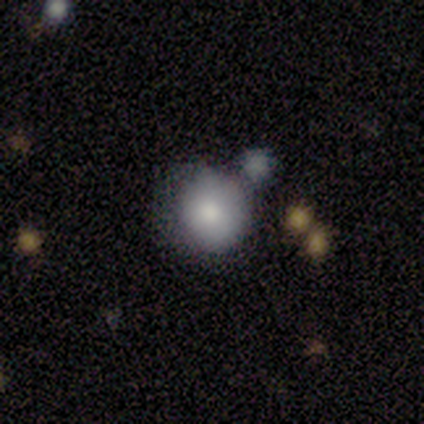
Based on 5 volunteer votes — A smooth galaxy with no disk features (40%, tied with star or artifact) that is round (100%).

Vote fractions:
- Smooth or featured? smooth: 40% (tied) / star or artifact: 40% (tied) / featured or disk: 20%
- How rounded? round: 100% / in between: 0% / cigar-shaped: 0%
- Merging? none: 33% (tied) / minor disturbance: 33% (tied) / merger: 33% (tied) / major disturbance: 0%